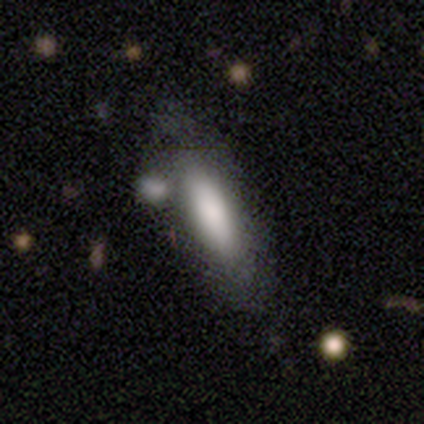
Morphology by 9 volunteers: Overall: smooth (44%, tied with featured or disk). How rounded: cigar-shaped (75%). Merging: none (62%).